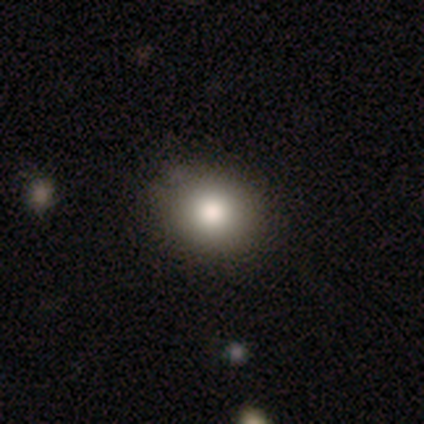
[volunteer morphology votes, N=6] smooth_or_featured: smooth (p=0.67) [alt: featured or disk p=0.17]
how_rounded: round (p=0.75) [alt: in between p=0.25]
merging: minor disturbance (p=0.60) [alt: none p=0.40]